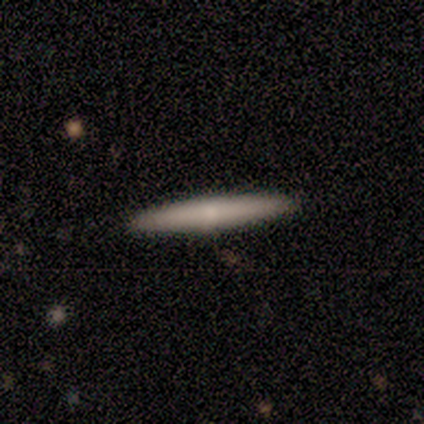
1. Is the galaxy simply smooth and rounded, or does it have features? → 80% featured or disk, 20% smooth, 0% star or artifact.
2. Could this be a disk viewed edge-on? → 100% yes, 0% no.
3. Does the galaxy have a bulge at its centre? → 50% none, 25% boxy, 25% rounded.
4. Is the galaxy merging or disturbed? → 100% none, 0% minor disturbance, 0% major disturbance, 0% merger.